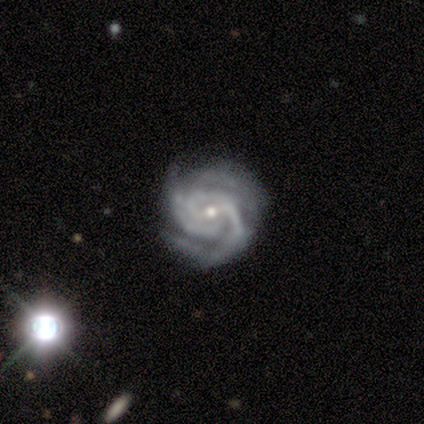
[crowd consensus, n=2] A featured or disk galaxy (100%) viewed edge-on (50%, tied with no) with a rounded central bulge (100%). Merging: none (100%).